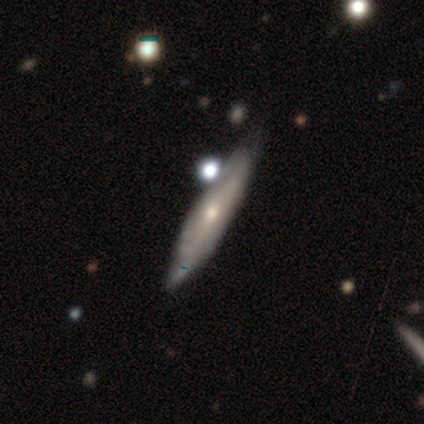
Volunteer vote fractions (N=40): Volunteers were most divided on "edge-on disk" (2-way tie): yes: 50%, no: 50%. Remaining: edge-on bulge — rounded (77%); smooth or featured — featured or disk (65%); merging — none (44%).